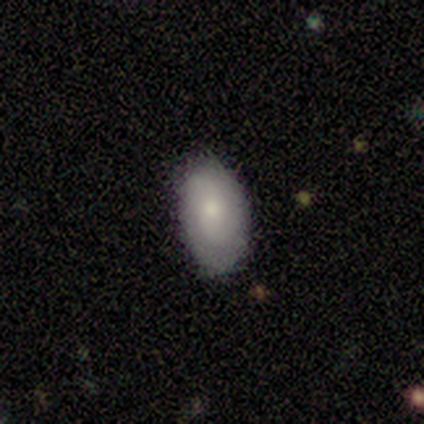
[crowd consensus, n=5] smooth 60%, featured or disk 40%, star or artifact 0%. Down the decision tree: how rounded — in between (100%); merging — none (60%).